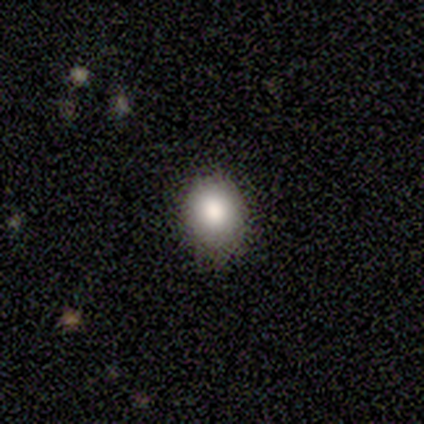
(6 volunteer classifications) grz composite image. It shows a smooth galaxy with no disk features (100%) that is round (50%, tied with in between). Merging: none (83%).